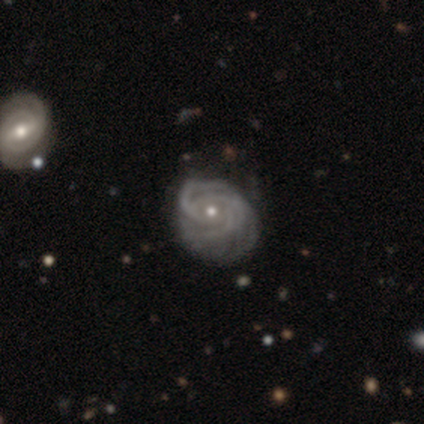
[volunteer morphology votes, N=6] This appears to be a featured or disk galaxy (83%) with no bar (80%), 3 (60%) tight (100%) spiral arms (100%) and a small central bulge (80%). Merging: none (67%).